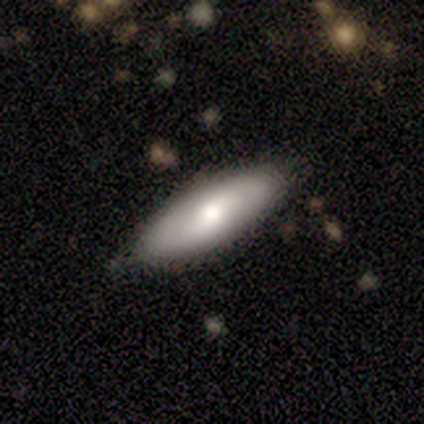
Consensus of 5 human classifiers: smooth-or-featured: smooth: 80% | featured or disk: 20% | star or artifact: 0%
  how-rounded: in between: 50% | round: 25% | cigar-shaped: 25%
  merging: none: 80% | minor disturbance: 20% | major disturbance: 0% | merger: 0%